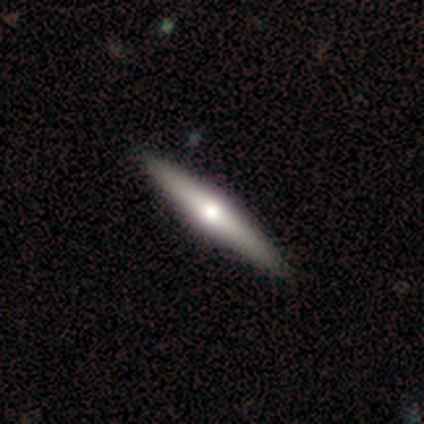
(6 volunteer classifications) Smooth or featured? 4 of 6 (67%) said featured or disk. Edge-on disk? 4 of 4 (100%) said yes. Edge-on bulge? 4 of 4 (100%) said rounded. Merging? 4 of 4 (100%) said none.